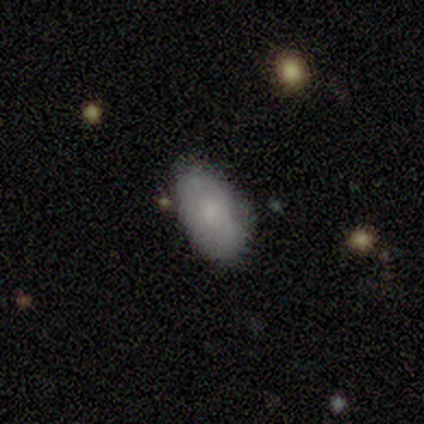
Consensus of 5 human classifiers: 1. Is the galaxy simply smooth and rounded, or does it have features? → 60% smooth, 40% featured or disk, 0% star or artifact.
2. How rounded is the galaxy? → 100% in between, 0% round, 0% cigar-shaped.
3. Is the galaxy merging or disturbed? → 60% none, 40% minor disturbance, 0% major disturbance, 0% merger.